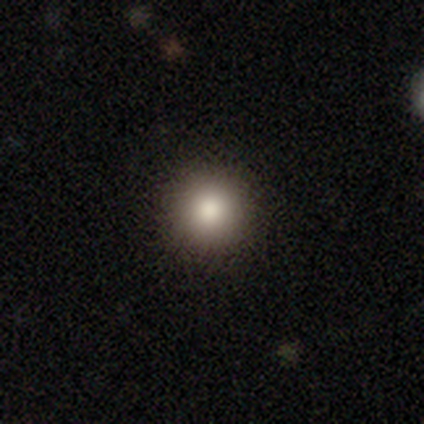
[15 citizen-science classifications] Smooth or featured?
  - smooth: 60% *
  - star or artifact: 40%
  - featured or disk: 0%
How rounded?
  - round: 100% *
  - in between: 0%
  - cigar-shaped: 0%
Merging?
  - none: 89% *
  - minor disturbance: 11%
  - major disturbance: 0%
  - merger: 0%